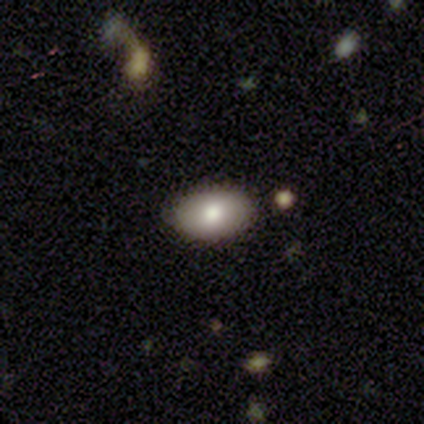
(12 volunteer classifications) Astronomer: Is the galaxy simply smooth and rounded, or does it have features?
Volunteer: smooth — 83%.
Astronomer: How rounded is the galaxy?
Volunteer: in between — 80%.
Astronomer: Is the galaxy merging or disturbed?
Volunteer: none — 92%.